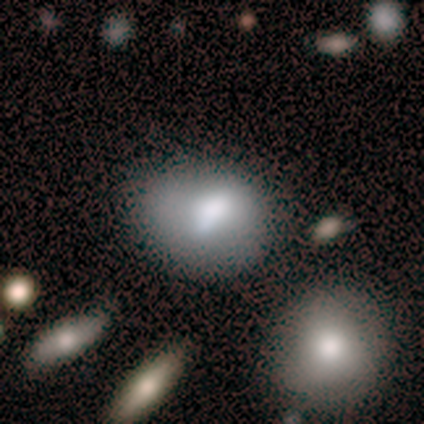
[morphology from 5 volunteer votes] smooth 60%, featured or disk 40%, star or artifact 0%. Down the decision tree: how rounded — in between (67%); merging — none (80%).